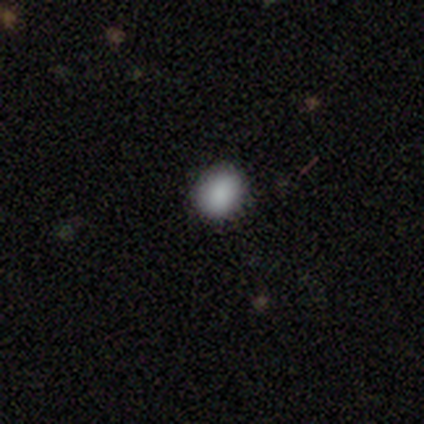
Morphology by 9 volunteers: smooth-or-featured: smooth: 100% | featured or disk: 0% | star or artifact: 0%
  how-rounded: round: 78% | in between: 22% | cigar-shaped: 0%
  merging: none: 89% | minor disturbance: 11% | major disturbance: 0% | merger: 0%